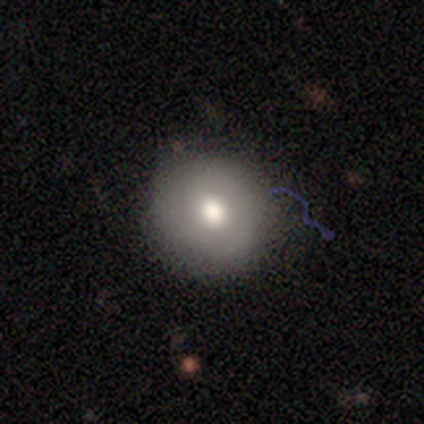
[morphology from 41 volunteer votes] This is clearly a smooth galaxy (80%). How rounded: clearly round (88%). Merging: likely none (79%).